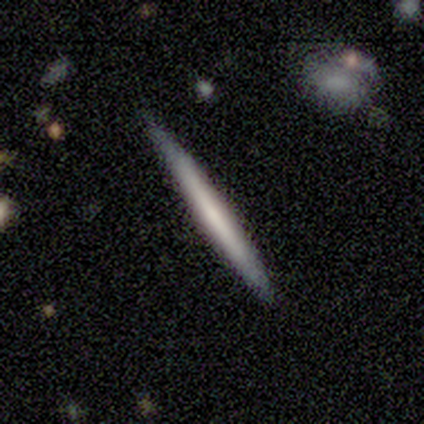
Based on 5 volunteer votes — This is likely a featured or disk galaxy (60%). It is clearly viewed edge-on (100%). Edge-on bulge: clearly none (100%). Merging: clearly none (80%).